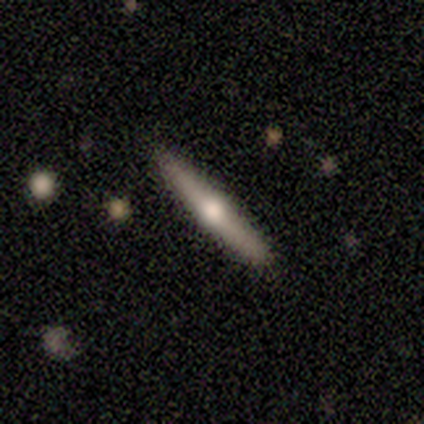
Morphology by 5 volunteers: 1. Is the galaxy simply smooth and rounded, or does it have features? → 60% smooth, 40% featured or disk, 0% star or artifact.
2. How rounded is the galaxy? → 100% cigar-shaped, 0% round, 0% in between.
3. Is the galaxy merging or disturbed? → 100% none, 0% minor disturbance, 0% major disturbance, 0% merger.